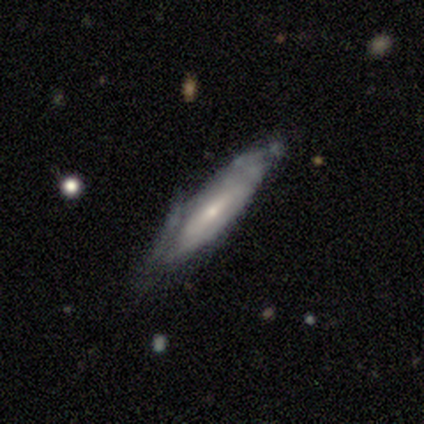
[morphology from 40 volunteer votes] Smooth or featured? featured or disk (52%)
Edge-on disk? no (67%)
Bar? no (50%)
Spiral arms? no (71%)
Bulge size? small (71%)
Merging? none (54%)